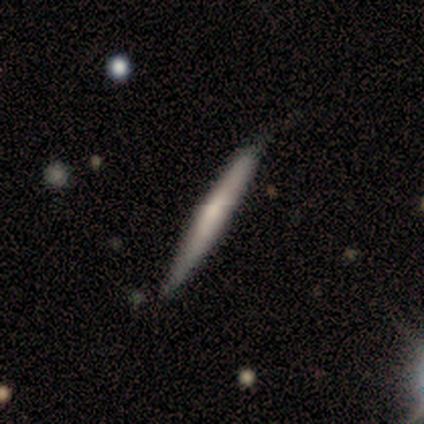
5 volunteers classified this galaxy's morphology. smooth-or-featured: featured or disk: 80% | smooth: 20% | star or artifact: 0%
  disk-edge-on: yes: 100% | no: 0%
    edge-on-bulge: none: 50% (tied) | rounded: 50% (tied) | boxy: 0%
  merging: none: 80% | minor disturbance: 20% | major disturbance: 0% | merger: 0%